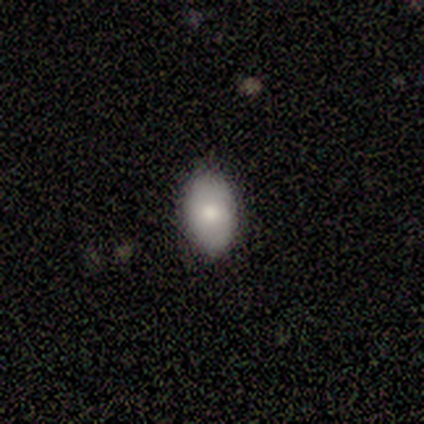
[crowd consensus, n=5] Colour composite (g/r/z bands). It shows a smooth galaxy with no disk features (80%) that is in between round and cigar-shaped (100%). Merging: none (75%).